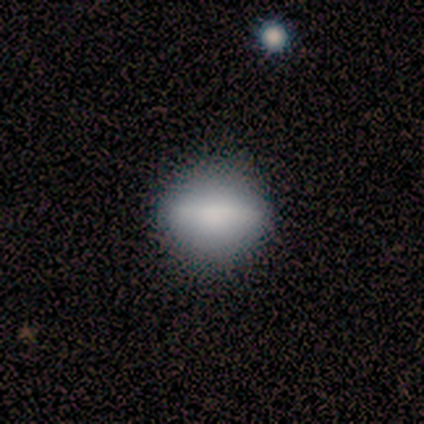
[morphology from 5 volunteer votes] A smooth galaxy with no disk features (60%) that is round (33%, tied with in between and cigar-shaped). Merging: minor disturbance (60%).